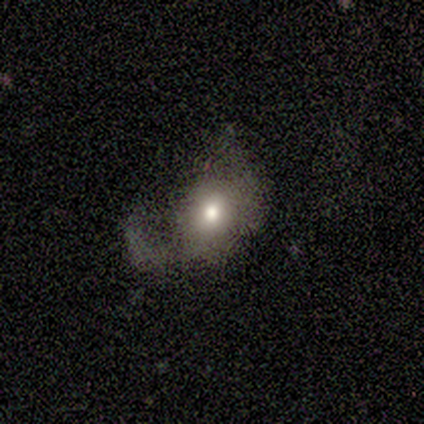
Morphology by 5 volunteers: Volunteers were most divided on "smooth or featured" (2-way tie): smooth: 40%, star or artifact: 40%, featured or disk: 20%; "merging" (3-way tie): none: 33%, minor disturbance: 33%, major disturbance: 33%, merger: 0%. More confident: how rounded — in between (100%).